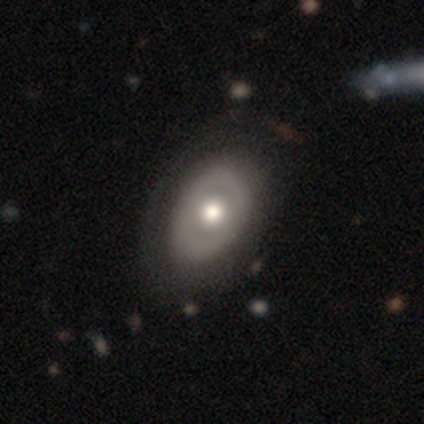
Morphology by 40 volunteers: A smooth galaxy with no disk features (52%) that is in between round and cigar-shaped (86%).

Vote fractions:
- Smooth or featured? smooth: 52% / featured or disk: 45% / star or artifact: 2%
- How rounded? in between: 86% / round: 14% / cigar-shaped: 0%
- Merging? none: 49% / minor disturbance: 13% / major disturbance: 8% / merger: 3%